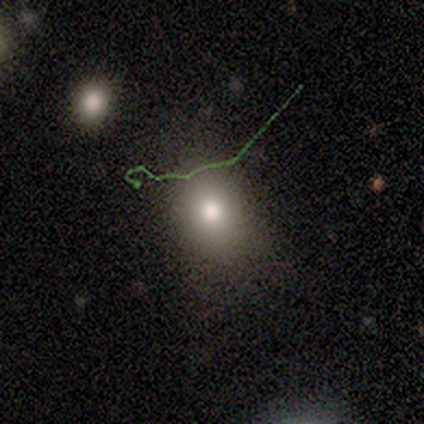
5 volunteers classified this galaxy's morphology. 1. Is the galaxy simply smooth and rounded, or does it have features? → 60% smooth, 20% featured or disk, 20% star or artifact.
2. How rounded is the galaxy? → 67% in between, 33% round, 0% cigar-shaped.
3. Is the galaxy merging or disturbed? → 100% none, 0% minor disturbance, 0% major disturbance, 0% merger.